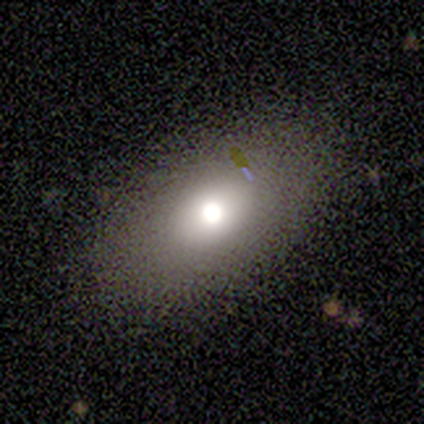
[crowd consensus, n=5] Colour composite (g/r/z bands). It shows a smooth galaxy with no disk features (100%) that is in between round and cigar-shaped (60%). Merging: none (80%).